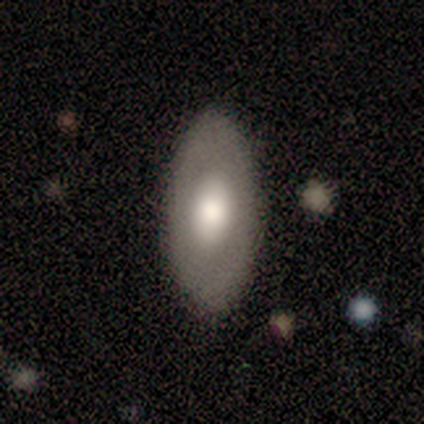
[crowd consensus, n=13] smooth-or-featured: smooth: 62% | featured or disk: 31% | star or artifact: 8%
  how-rounded: in between: 88% | round: 12% | cigar-shaped: 0%
  merging: none: 92% | minor disturbance: 8% | major disturbance: 0% | merger: 0%